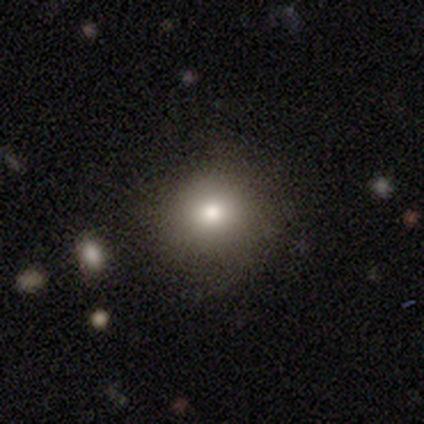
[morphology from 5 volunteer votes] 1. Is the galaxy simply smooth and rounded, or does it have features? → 60% smooth, 20% featured or disk, 20% star or artifact.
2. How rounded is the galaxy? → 67% round, 33% in between, 0% cigar-shaped.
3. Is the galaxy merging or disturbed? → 100% none, 0% minor disturbance, 0% major disturbance, 0% merger.